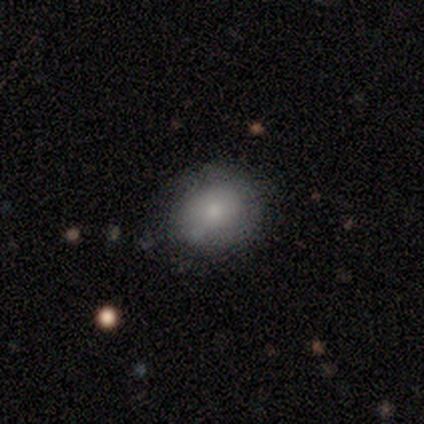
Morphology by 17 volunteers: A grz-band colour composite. It shows a smooth galaxy with no disk features (88%) that is round (53%). Merging: none (65%).